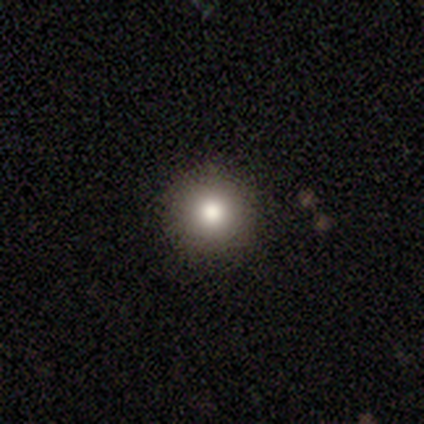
Smooth or featured? 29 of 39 (74%) said smooth. How rounded? 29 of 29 (100%) said round. Merging? 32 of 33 (97%) said none.